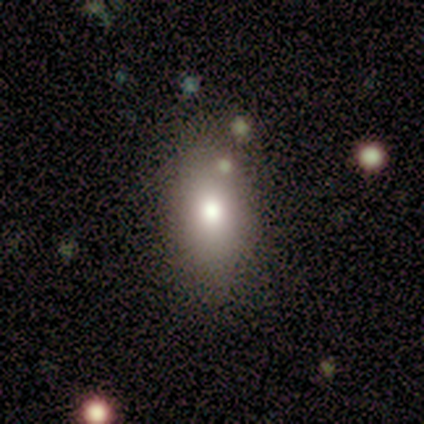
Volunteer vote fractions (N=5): Volunteers were most divided on "smooth or featured" (2-way tie): smooth: 40%, star or artifact: 40%, featured or disk: 20%. More confident: how rounded — in between (100%); merging — none (100%).